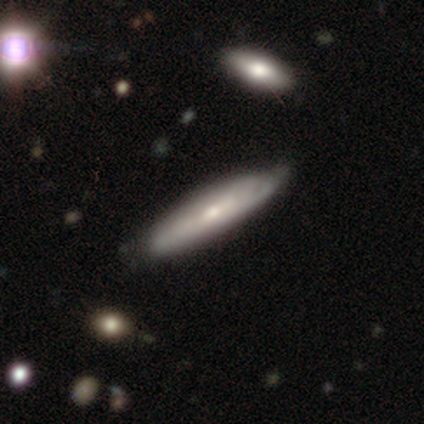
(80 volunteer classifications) Q: Smooth or featured?
A: featured or disk (56%); runner-up: smooth (41%)
Q: Edge-on disk?
A: yes (53%); runner-up: no (47%)
Q: Edge-on bulge?
A: rounded (67%); runner-up: none (29%)
Q: Merging?
A: none (36%); runner-up: minor disturbance (15%)